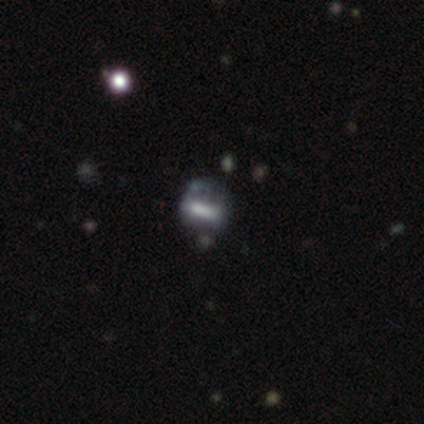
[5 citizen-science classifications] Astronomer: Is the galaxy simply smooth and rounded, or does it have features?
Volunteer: smooth — 40%, tied with featured or disk at 40%.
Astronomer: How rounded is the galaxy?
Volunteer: in between — 100%.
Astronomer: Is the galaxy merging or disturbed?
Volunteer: minor disturbance — 50%.